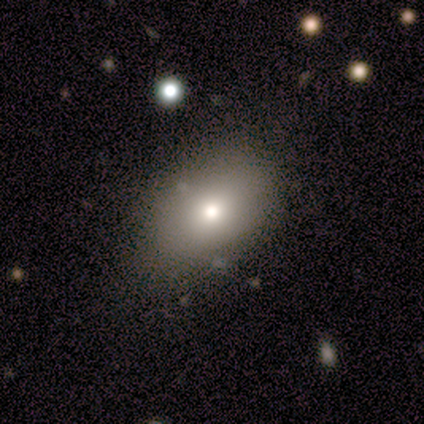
This is clearly a smooth galaxy (85%). How rounded: likely in between (64%). Merging: possibly none (54%).